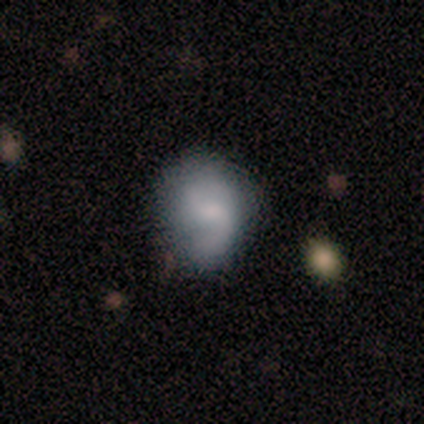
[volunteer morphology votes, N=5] Smooth or featured?
  - smooth: 80% *
  - featured or disk: 20%
  - star or artifact: 0%
How rounded?
  - round: 75% *
  - in between: 25%
  - cigar-shaped: 0%
Merging?
  - minor disturbance: 60% *
  - none: 40%
  - major disturbance: 0%
  - merger: 0%